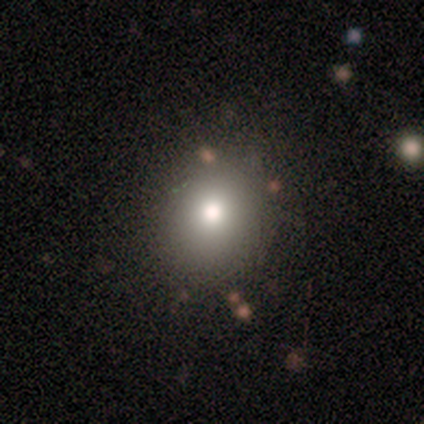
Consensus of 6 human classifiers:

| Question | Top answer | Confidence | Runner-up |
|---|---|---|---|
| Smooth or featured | smooth | 100% | — |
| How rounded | round | 83% | in between (17%) |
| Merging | none | 83% | merger (17%) |